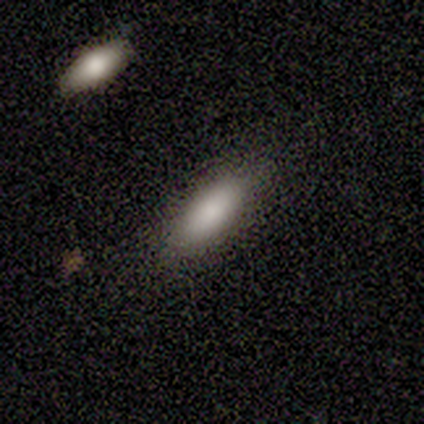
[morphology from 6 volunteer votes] Volunteers were most divided on "merging": none: 50%, merger: 33%, minor disturbance: 17%, major disturbance: 0%. More confident: smooth or featured — smooth (100%); how rounded — in between (67%).